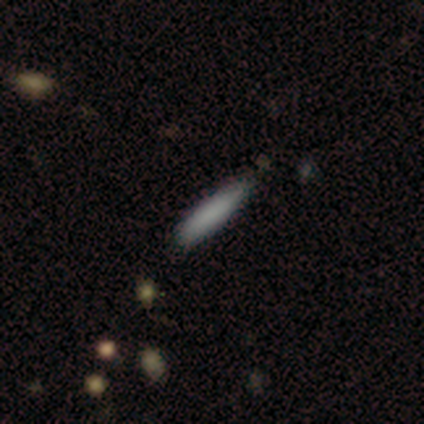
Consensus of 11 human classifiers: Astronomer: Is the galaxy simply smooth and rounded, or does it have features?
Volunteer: smooth — 91%.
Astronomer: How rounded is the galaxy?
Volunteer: cigar-shaped — 90%.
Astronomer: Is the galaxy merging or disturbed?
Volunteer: none — 100%.